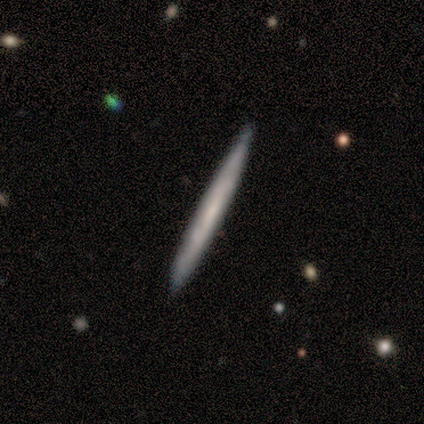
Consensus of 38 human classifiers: A featured or disk galaxy (58%) viewed edge-on (91%) with no central bulge (90%). Merging: none (59%).